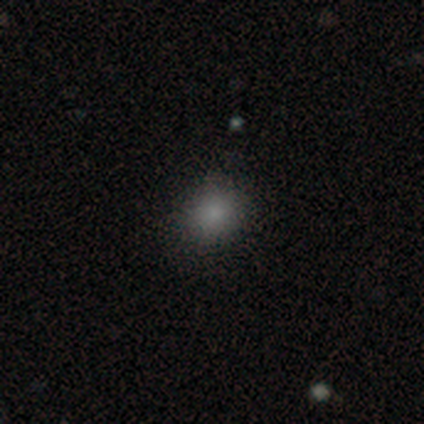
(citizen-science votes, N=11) This is clearly a smooth galaxy (100%). How rounded: clearly round (82%). Merging: clearly none (82%).